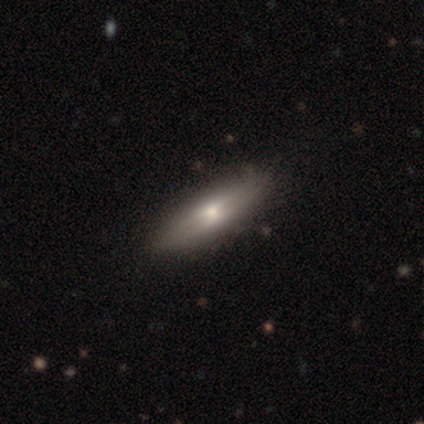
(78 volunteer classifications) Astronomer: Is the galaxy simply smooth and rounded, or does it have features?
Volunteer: featured or disk — 55% (runner-up: smooth, 41%).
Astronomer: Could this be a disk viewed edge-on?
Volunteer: yes — 88%.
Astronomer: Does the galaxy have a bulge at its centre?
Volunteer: rounded — 63%.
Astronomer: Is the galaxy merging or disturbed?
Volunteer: none — 45%.